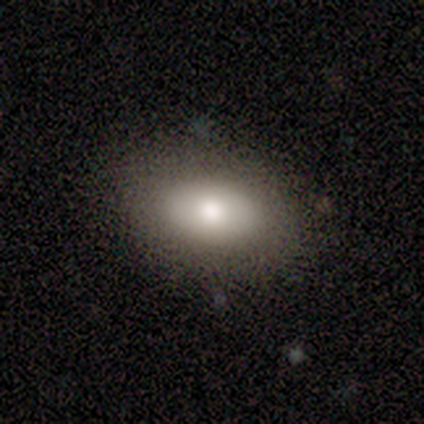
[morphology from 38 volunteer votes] smooth 84%, featured or disk 11%, star or artifact 5%. Down the decision tree: how rounded — in between (84%); merging — none (86%).